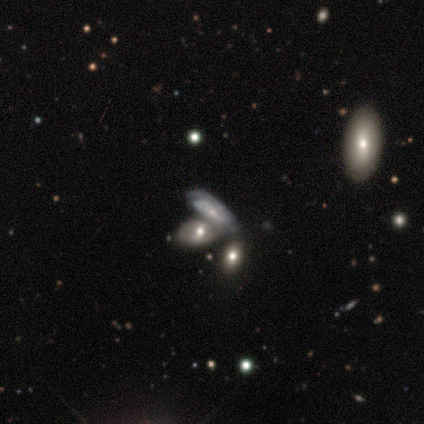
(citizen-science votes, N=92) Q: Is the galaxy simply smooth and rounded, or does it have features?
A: featured or disk — 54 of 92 (59%).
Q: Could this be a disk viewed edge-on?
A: no — 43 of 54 (80%).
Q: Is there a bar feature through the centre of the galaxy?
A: no — 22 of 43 (51%).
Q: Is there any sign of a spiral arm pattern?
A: yes — 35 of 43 (81%).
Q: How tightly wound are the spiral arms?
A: tight — 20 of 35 (57%).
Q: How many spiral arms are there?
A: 2 — 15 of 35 (43%).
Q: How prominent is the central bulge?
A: small — 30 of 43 (70%).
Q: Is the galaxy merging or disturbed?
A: merger — 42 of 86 (49%).